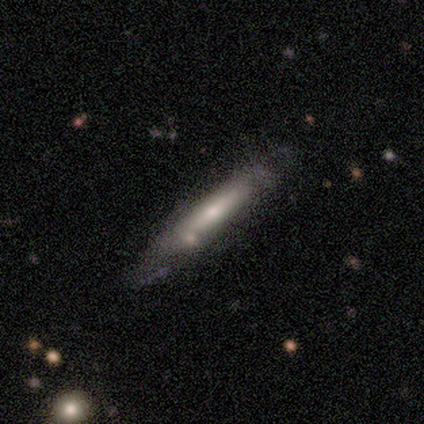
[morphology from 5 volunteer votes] smooth_or_featured: smooth (p=0.60) [alt: featured or disk p=0.40]
how_rounded: cigar-shaped (p=1.00)
merging: none (p=0.80) [alt: merger p=0.20]